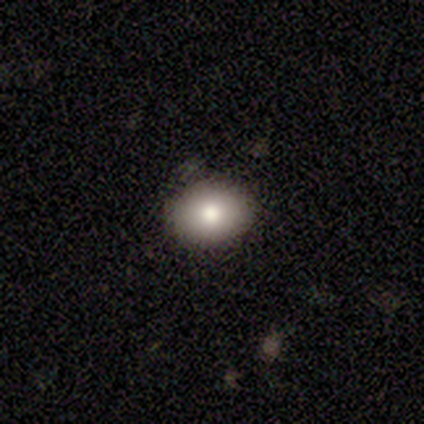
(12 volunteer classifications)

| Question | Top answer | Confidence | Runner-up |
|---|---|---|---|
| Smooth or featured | smooth | 75% | featured or disk (17%) |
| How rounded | in between | 89% | round (11%) |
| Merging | none | 82% | major disturbance (9%) |